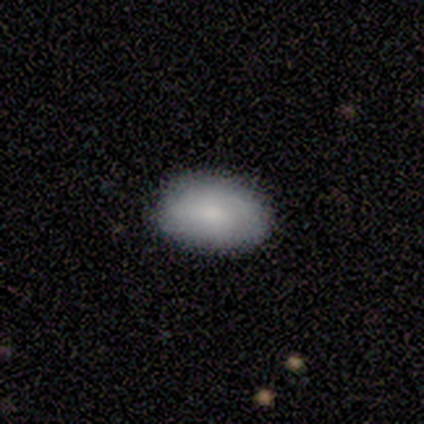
Smooth or featured?
  - smooth: 88% *
  - featured or disk: 12%
  - star or artifact: 0%
How rounded?
  - in between: 97% *
  - cigar-shaped: 3%
  - round: 0%
Merging?
  - none: 85% *
  - minor disturbance: 12%
  - major disturbance: 3%
  - merger: 0%